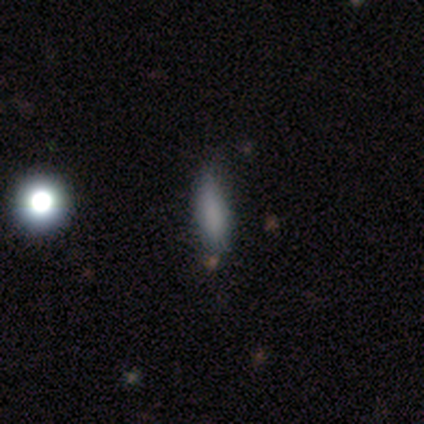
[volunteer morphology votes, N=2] Smooth or featured: smooth — 100%
How rounded: in between — 50% (tied with cigar-shaped — 50%)
Merging: none — 50% (tied with minor disturbance — 50%)